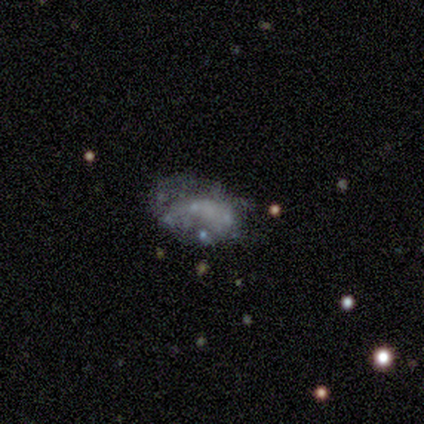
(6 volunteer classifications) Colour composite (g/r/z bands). It shows a smooth galaxy with no disk features (50%, tied with featured or disk) that is in between round and cigar-shaped (67%). Merging: none (50%).